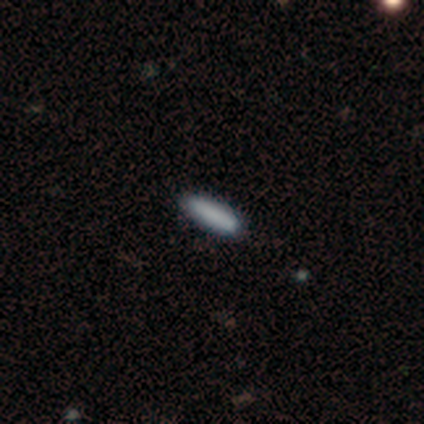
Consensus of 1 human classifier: This appears to be a smooth galaxy with no disk features (100%) that is cigar-shaped (100%). Merging: minor disturbance (100%).